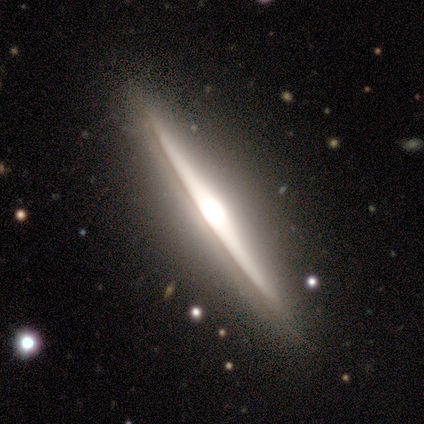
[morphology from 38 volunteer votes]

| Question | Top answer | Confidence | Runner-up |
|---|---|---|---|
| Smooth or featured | featured or disk | 92% | smooth (8%) |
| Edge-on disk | yes | 97% | no (3%) |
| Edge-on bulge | rounded | 79% | boxy (15%) |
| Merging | none | 95% | minor disturbance (3%) |